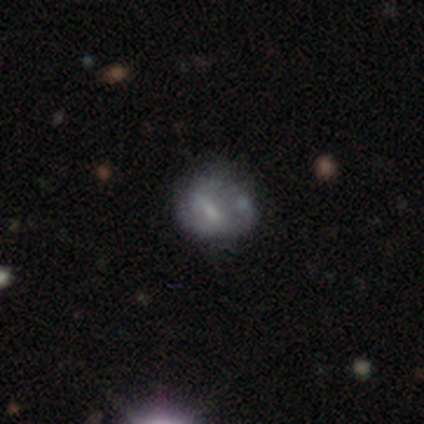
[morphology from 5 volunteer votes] Smooth or featured? smooth (40%, tied with featured or disk)
How rounded? round (50%, tied with in between)
Merging? none (75%)